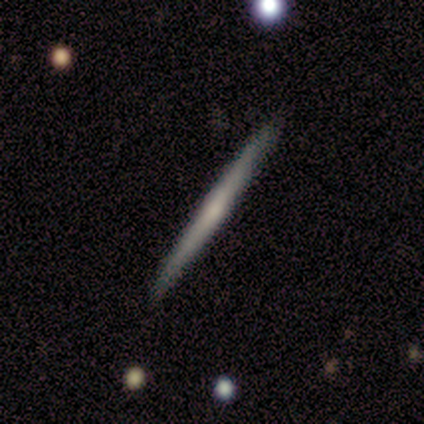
This is likely a featured or disk galaxy (75%). It is clearly viewed edge-on (100%). Edge-on bulge: likely none (67%). Merging: clearly none (100%).